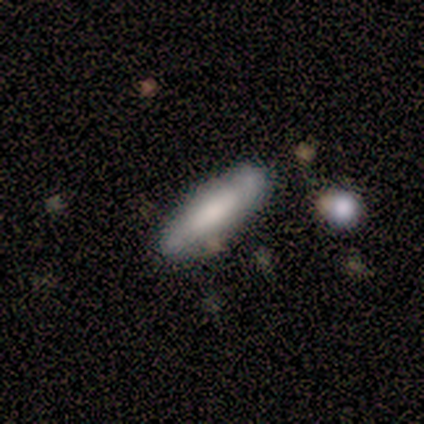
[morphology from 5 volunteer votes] type=smooth (80%); roundness=cigar-shaped (75%); merging=none (60%).